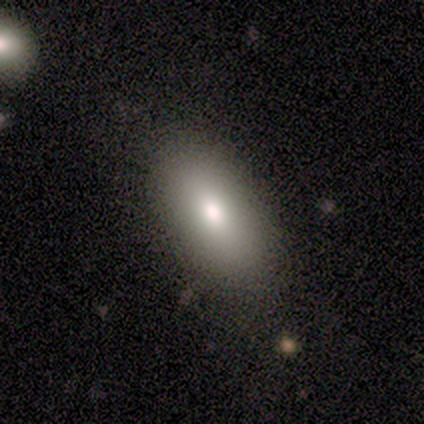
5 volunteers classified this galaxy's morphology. Smooth or featured? 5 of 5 (100%) said smooth. How rounded? 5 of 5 (100%) said in between. Merging? 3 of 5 (60%) said none.